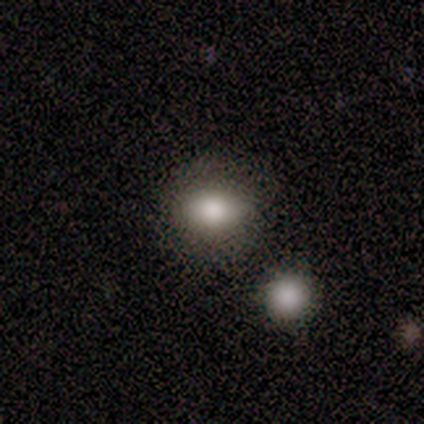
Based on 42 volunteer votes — This is likely a smooth galaxy (76%). How rounded: likely in between (72%). Merging: likely none (61%).